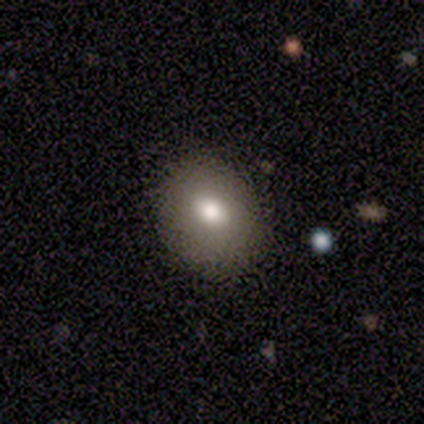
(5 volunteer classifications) Overall: featured or disk (60%; smooth 40%). Edge-on disk: yes (67%; no 33%). Edge-on bulge: boxy (50%, tied with none). Merging: none (60%; minor disturbance 20%).